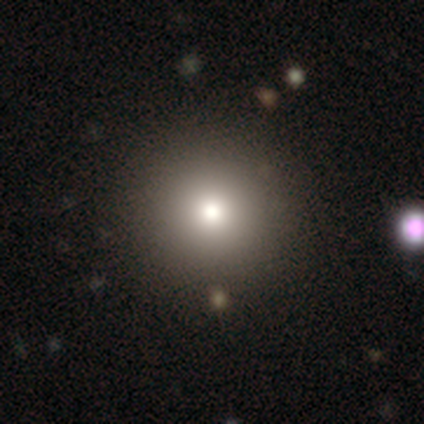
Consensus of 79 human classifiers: smooth 77%, star or artifact 14%, featured or disk 9%. Down the decision tree: how rounded — round (98%); merging — none (49%).